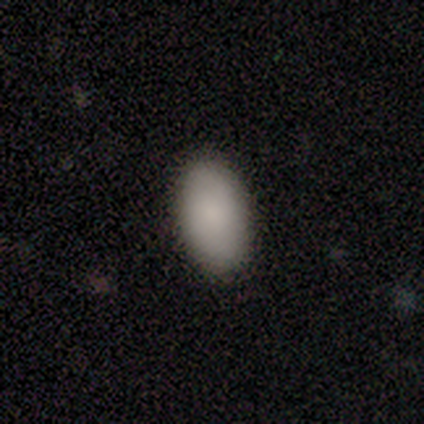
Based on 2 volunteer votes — Smooth or featured? 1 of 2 (50%, tied with star or artifact) said smooth. How rounded? 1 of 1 (100%) said in between. Merging? 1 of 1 (100%) said none.